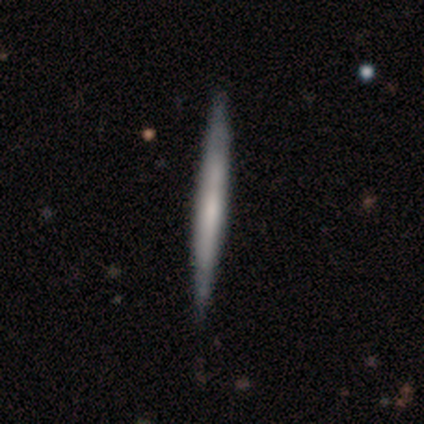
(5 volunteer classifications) Q: Smooth or featured?
A: smooth (60%); runner-up: featured or disk (20%)
Q: How rounded?
A: cigar-shaped (100%)
Q: Merging?
A: none (75%); runner-up: minor disturbance (25%)